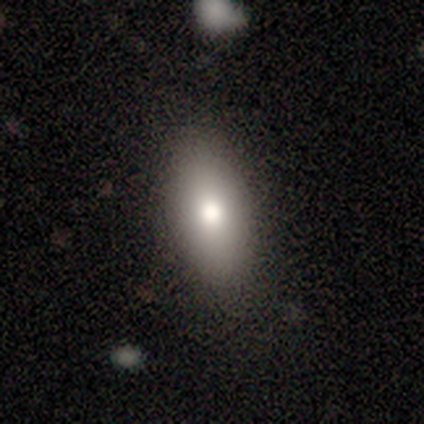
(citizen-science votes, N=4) This is possibly a smooth galaxy (50%, tied with featured or disk). How rounded: clearly in between (100%). Merging: clearly none (100%).